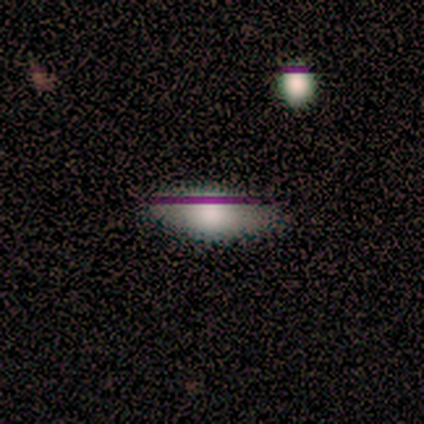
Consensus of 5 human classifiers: smooth 80%, star or artifact 20%, featured or disk 0%. Down the decision tree: how rounded — in between (50%); merging — none (75%).